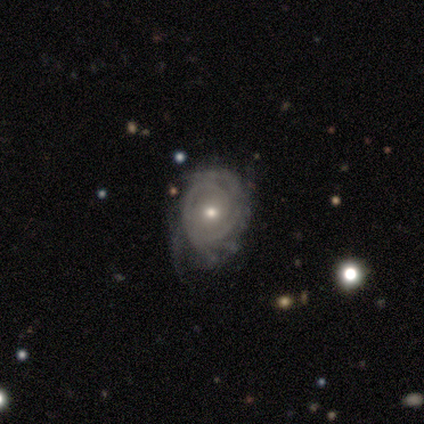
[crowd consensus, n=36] Volunteers were most divided on "bulge size": moderate: 55%, small: 42%, large: 3%, dominant: 0%, none: 0%. Remaining: edge-on disk — no (97%); spiral arms — yes (97%); smooth or featured — featured or disk (94%); bar — no (79%); spiral winding — tight (78%); merging — none (54%); spiral arm count — can't tell (44%).